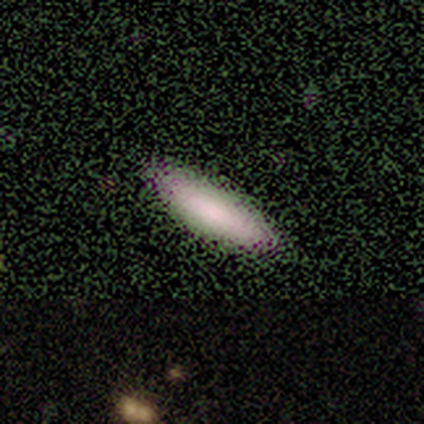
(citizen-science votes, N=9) Smooth or featured?
  - smooth: 89% *
  - featured or disk: 11%
  - star or artifact: 0%
How rounded?
  - in between: 50% * (tied)
  - cigar-shaped: 50% * (tied)
  - round: 0%
Merging?
  - none: 89% *
  - major disturbance: 11%
  - minor disturbance: 0%
  - merger: 0%